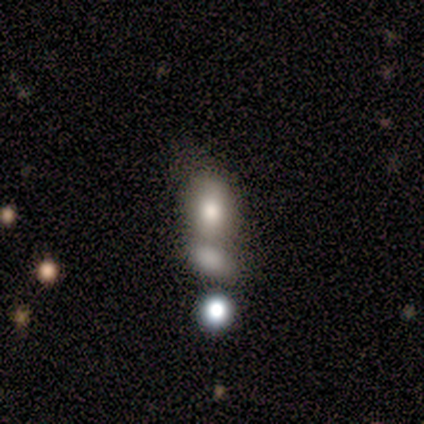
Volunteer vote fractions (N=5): Morphology: type=smooth (80%); roundness=round (75%); merging=merger (50%).